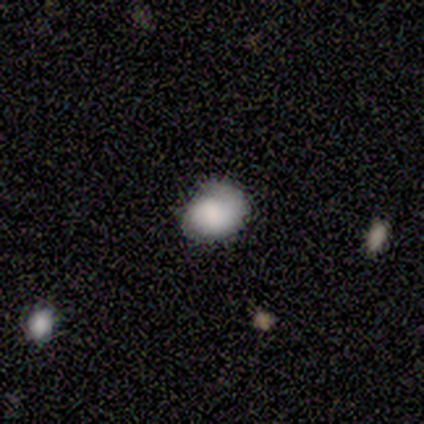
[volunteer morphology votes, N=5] Smooth or featured? 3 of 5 (60%) said smooth. How rounded? 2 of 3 (67%) said round. Merging? 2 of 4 (50%) said none.